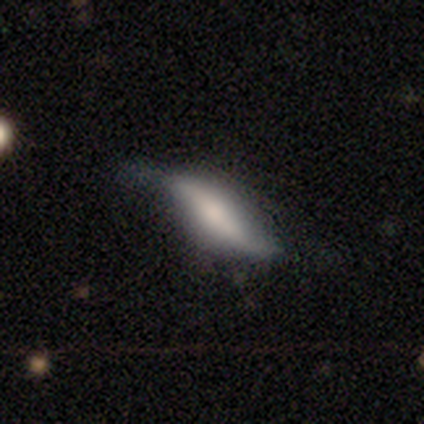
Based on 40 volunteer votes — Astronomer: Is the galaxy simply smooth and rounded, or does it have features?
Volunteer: featured or disk — 52% (runner-up: smooth, 40%).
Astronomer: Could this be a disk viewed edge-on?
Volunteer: no — 62% (runner-up: yes, 38%).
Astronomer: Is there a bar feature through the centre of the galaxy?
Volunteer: strong — 46% (runner-up: no, 38%).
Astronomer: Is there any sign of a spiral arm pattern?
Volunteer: yes — 92%.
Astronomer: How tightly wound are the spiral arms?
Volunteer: loose — 92%.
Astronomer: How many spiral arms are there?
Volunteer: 2 — 92%.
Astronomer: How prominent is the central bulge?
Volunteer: moderate — 38% (runner-up: none, 31%).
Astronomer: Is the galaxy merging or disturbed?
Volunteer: minor disturbance — 46% (runner-up: none, 35%).